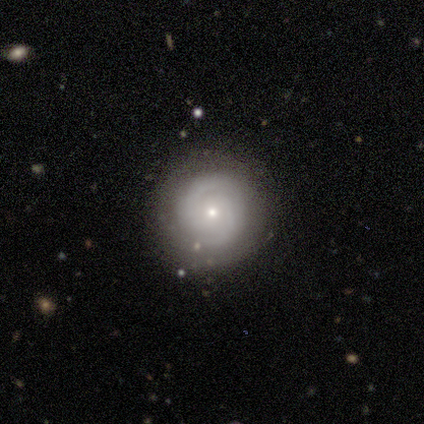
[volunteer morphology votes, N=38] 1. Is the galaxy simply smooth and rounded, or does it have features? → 82% featured or disk, 16% smooth, 3% star or artifact.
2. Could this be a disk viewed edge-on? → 100% no, 0% yes.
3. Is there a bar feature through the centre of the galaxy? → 52% weak, 48% no, 0% strong.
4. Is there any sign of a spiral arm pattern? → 87% yes, 13% no.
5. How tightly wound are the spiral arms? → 56% tight, 37% medium, 7% loose.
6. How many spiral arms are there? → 74% 2, 15% can't tell, 7% 3, 4% more than 4, 0% 1, 0% 4.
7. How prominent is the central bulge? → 87% small, 13% moderate, 0% dominant, 0% large, 0% none.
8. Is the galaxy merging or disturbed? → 95% none, 5% minor disturbance, 0% major disturbance, 0% merger.